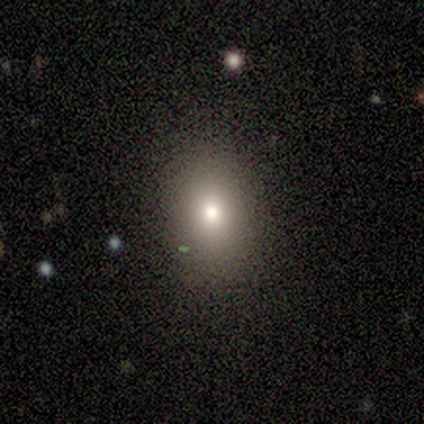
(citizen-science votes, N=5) A smooth galaxy with no disk features (60%) that is round (67%). Merging: none (80%).